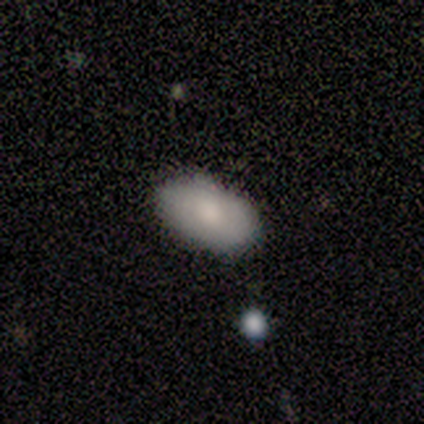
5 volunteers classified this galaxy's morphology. Smooth or featured? smooth (100%)
How rounded? in between (100%)
Merging? none (100%)